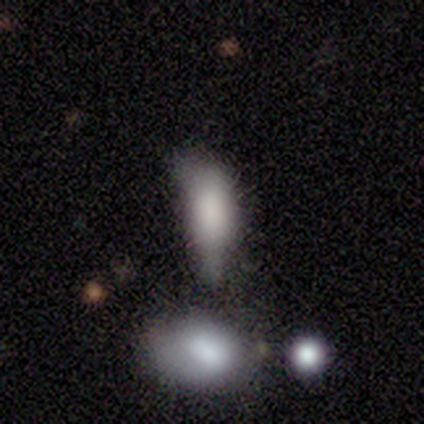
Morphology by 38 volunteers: This is clearly a smooth galaxy (87%). How rounded: clearly in between (82%). Merging: marginally minor disturbance (32%).